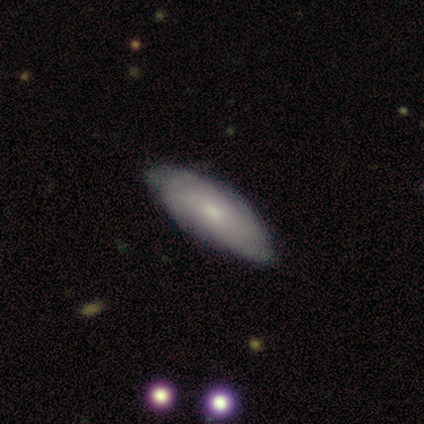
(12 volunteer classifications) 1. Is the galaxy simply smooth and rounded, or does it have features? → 67% featured or disk, 33% smooth, 0% star or artifact.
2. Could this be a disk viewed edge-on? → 88% no, 12% yes.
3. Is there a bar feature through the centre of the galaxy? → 86% no, 14% weak, 0% strong.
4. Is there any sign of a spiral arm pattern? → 100% yes, 0% no.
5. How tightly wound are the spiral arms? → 86% tight, 14% medium, 0% loose.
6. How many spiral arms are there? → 86% can't tell, 14% 2, 0% 1, 0% 3, 0% 4, 0% more than 4.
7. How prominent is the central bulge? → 43% moderate (tied), 43% small (tied), 14% none, 0% dominant, 0% large.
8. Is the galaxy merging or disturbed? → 75% none, 25% minor disturbance, 0% major disturbance, 0% merger.